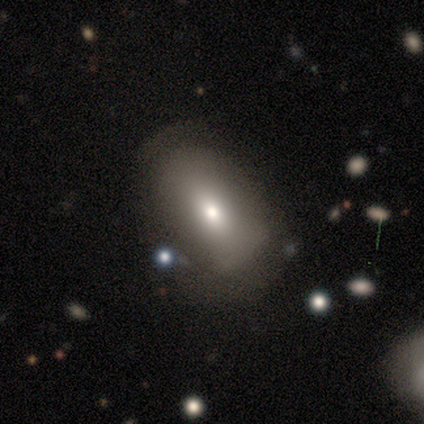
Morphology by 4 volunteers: smooth-or-featured: smooth: 75% | star or artifact: 25% | featured or disk: 0%
  how-rounded: in between: 100% | round: 0% | cigar-shaped: 0%
  merging: none: 67% | minor disturbance: 33% | major disturbance: 0% | merger: 0%